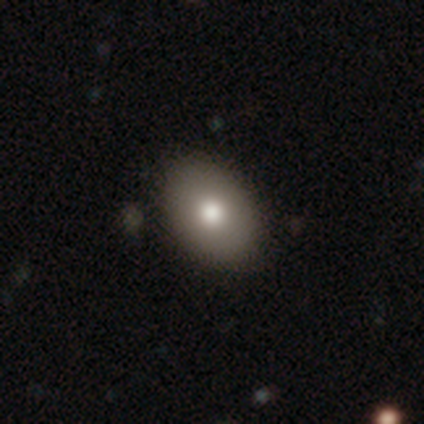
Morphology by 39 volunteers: Smooth or featured: smooth — 77% (featured or disk — 23%)
How rounded: in between — 83% (round — 17%)
Merging: none — 54% (minor disturbance — 10%)